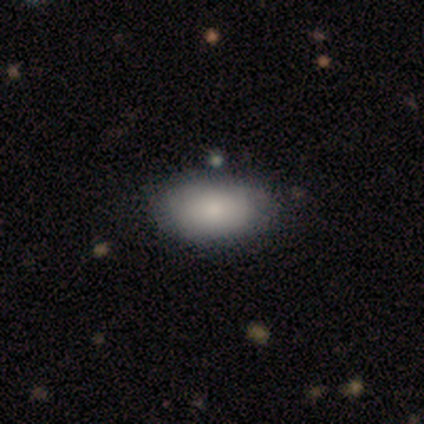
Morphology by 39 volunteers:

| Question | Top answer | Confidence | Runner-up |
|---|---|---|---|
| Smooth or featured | smooth | 77% | featured or disk (13%) |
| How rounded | in between | 93% | round (7%) |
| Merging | none | 69% | minor disturbance (29%) |